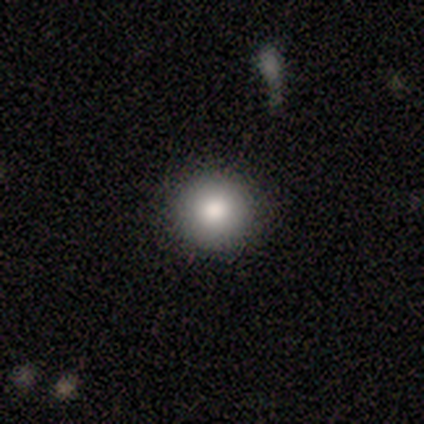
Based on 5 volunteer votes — A smooth galaxy with no disk features (80%) that is round (100%).

Vote fractions:
- Smooth or featured? smooth: 80% / featured or disk: 20% / star or artifact: 0%
- How rounded? round: 100% / in between: 0% / cigar-shaped: 0%
- Merging? none: 100% / minor disturbance: 0% / major disturbance: 0% / merger: 0%